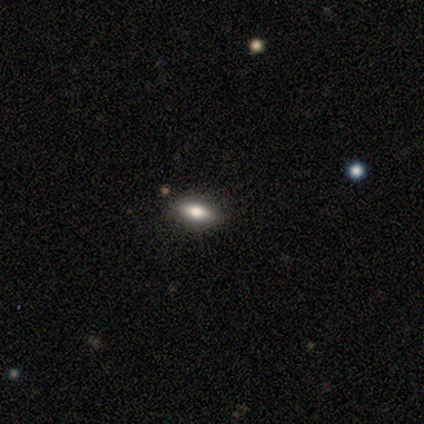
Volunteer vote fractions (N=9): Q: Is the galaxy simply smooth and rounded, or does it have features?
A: smooth — 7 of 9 (78%).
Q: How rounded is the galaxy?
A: in between — 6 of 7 (86%).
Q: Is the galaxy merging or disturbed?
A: none — 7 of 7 (100%).